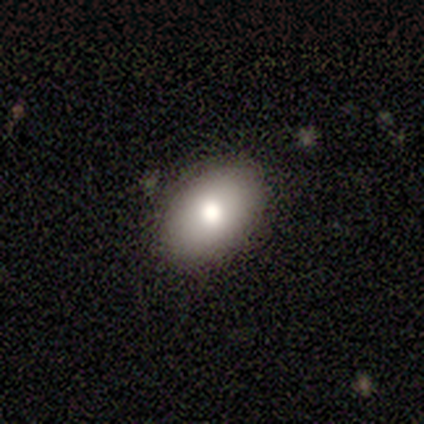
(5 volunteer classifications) Smooth or featured? 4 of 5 (80%) said smooth. How rounded? 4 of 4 (100%) said in between. Merging? 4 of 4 (100%) said none.